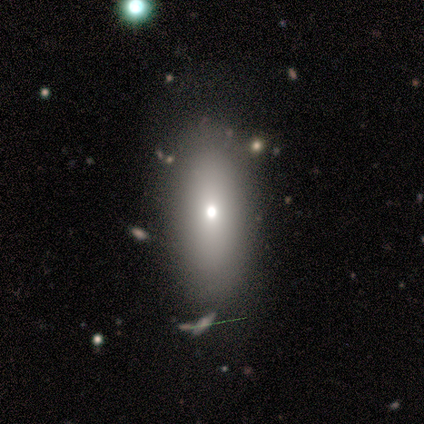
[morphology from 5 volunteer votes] Overall: smooth (60%; featured or disk 20%). How rounded: in between (100%). Merging: none (75%).